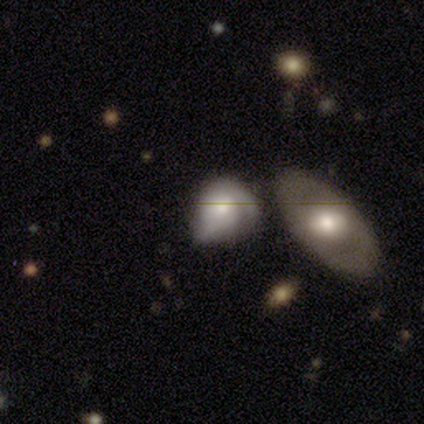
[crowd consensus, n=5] smooth-or-featured: smooth: 60% | featured or disk: 40% | star or artifact: 0%
  how-rounded: in between: 67% | round: 33% | cigar-shaped: 0%
  merging: merger: 60% | none: 20% | minor disturbance: 20% | major disturbance: 0%